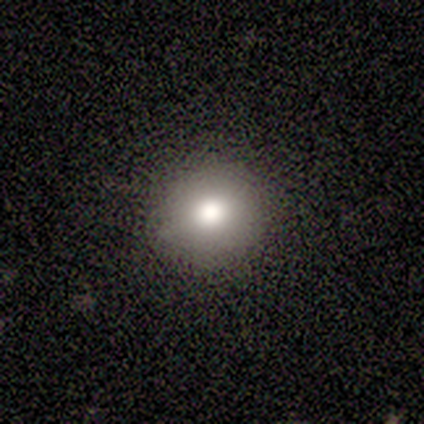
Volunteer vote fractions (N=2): smooth_or_featured: smooth (p=1.00)
how_rounded: round (p=0.50) [tied with: in between p=0.50]
merging: none (p=0.50) [tied with: major disturbance p=0.50]